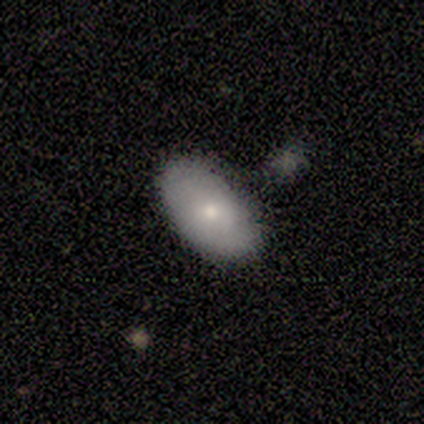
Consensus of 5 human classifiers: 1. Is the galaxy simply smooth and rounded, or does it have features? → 60% smooth, 40% featured or disk, 0% star or artifact.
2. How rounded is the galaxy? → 100% in between, 0% round, 0% cigar-shaped.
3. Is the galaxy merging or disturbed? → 80% none, 20% merger, 0% minor disturbance, 0% major disturbance.